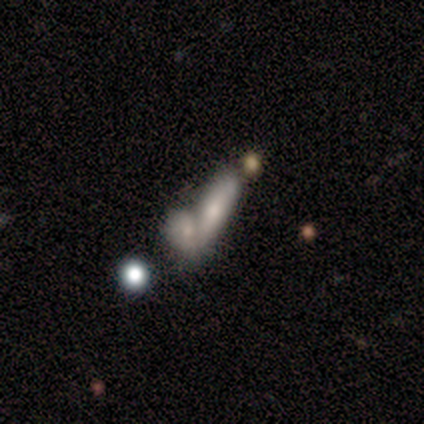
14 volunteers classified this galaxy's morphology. smooth_or_featured: smooth (p=0.64) [alt: featured or disk p=0.29]
how_rounded: in between (p=0.89) [alt: cigar-shaped p=0.11]
merging: merger (p=0.85) [alt: minor disturbance p=0.08]